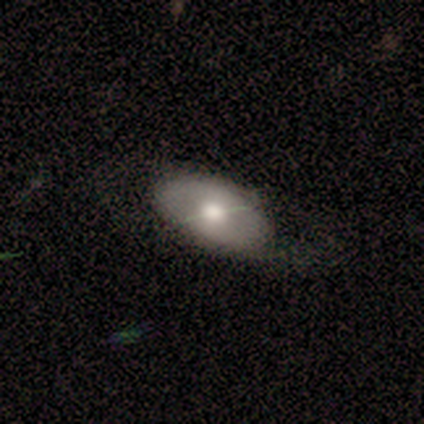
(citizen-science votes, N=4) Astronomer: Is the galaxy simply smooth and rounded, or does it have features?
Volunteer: smooth — 50%.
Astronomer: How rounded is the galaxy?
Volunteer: in between — 100%.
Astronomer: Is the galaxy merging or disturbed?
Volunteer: minor disturbance — 100%.